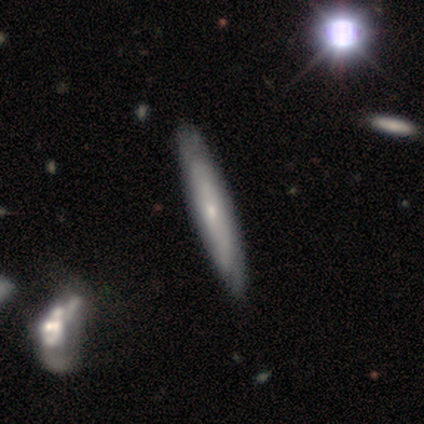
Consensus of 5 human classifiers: Overall: smooth (60%; featured or disk 40%). How rounded: cigar-shaped (100%). Merging: none (80%).